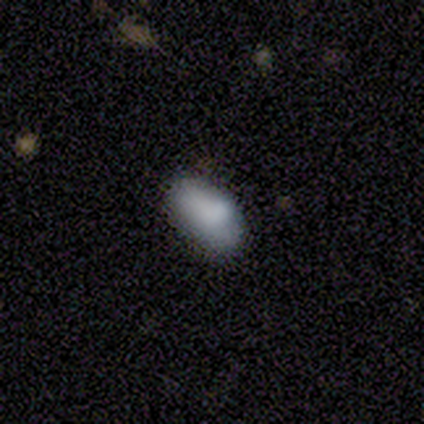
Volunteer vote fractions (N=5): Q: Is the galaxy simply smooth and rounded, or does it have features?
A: smooth — 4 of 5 (80%).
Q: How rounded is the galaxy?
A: in between — 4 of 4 (100%).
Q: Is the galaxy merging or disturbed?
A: none — 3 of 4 (75%).